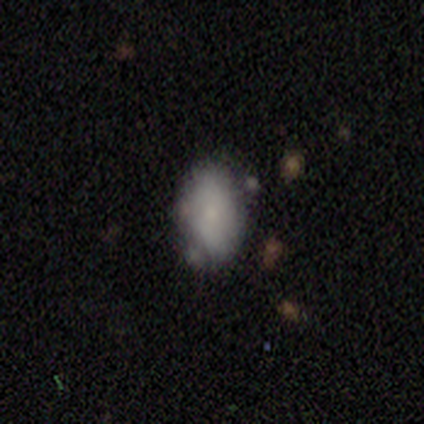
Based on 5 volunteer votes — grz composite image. It shows a smooth galaxy with no disk features (60%) that is in between round and cigar-shaped (100%). Merging: none (50%, tied with minor disturbance).